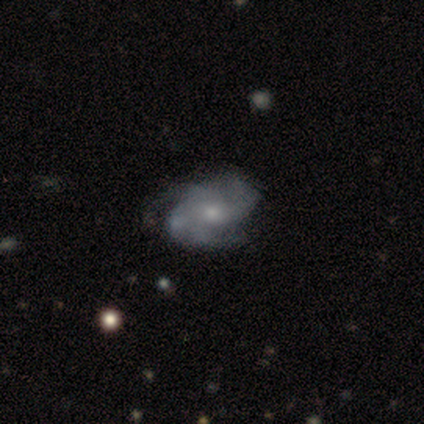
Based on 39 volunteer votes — smooth-or-featured: featured or disk: 87% | smooth: 10% | star or artifact: 3%
  disk-edge-on: no: 100% | yes: 0%
    bar: no: 62% | weak: 32% | strong: 6%
    has-spiral-arms: yes: 94% | no: 6%
      spiral-winding: medium: 53% | tight: 41% | loose: 6%
      spiral-arm-count: 2: 31% (tied) | 3: 31% (tied) | 4: 19% | can't tell: 16% | 1: 3% | more than 4: 0%
    bulge-size: moderate: 47% (tied) | small: 47% (tied) | large: 6% | dominant: 0% | none: 0%
  merging: none: 47% | minor disturbance: 13% | major disturbance: 8% | merger: 8%